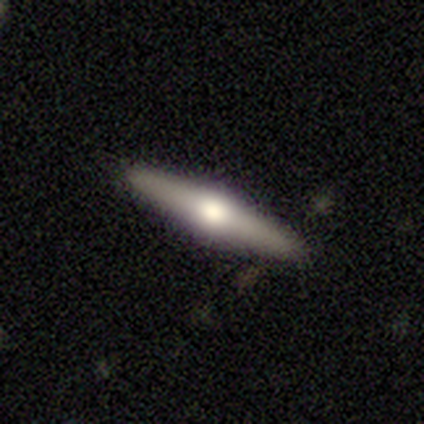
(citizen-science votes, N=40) A featured or disk galaxy (70%) viewed edge-on (96%) with a rounded central bulge (100%).

Vote fractions:
- Smooth or featured? featured or disk: 70% / smooth: 22% / star or artifact: 8%
- Edge-on disk? yes: 96% / no: 4%
- Edge-on bulge? rounded: 100% / boxy: 0% / none: 0%
- Merging? none: 92% / minor disturbance: 5% / major disturbance: 3% / merger: 0%